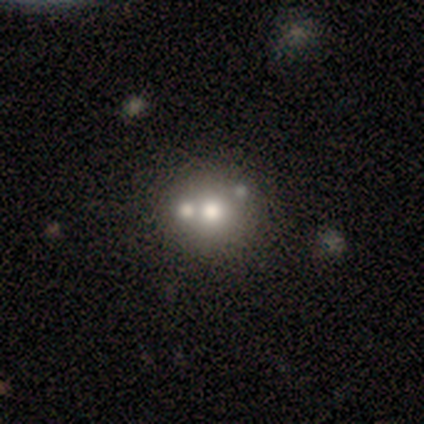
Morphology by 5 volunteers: smooth 60%, featured or disk 20%, star or artifact 20%. Down the decision tree: how rounded — round (100%); merging — merger (50%).